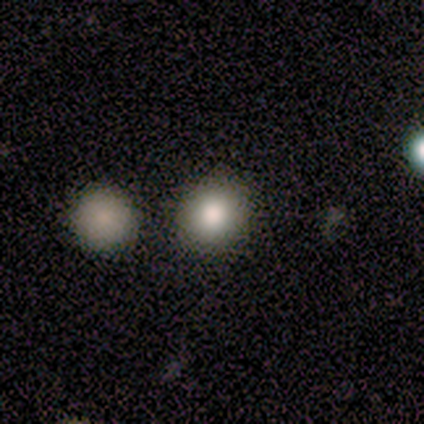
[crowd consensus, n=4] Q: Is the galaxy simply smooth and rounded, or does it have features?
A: smooth — 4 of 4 (100%).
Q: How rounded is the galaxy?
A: round — 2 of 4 (50%, tied with in between).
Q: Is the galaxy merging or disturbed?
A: none — 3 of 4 (75%).